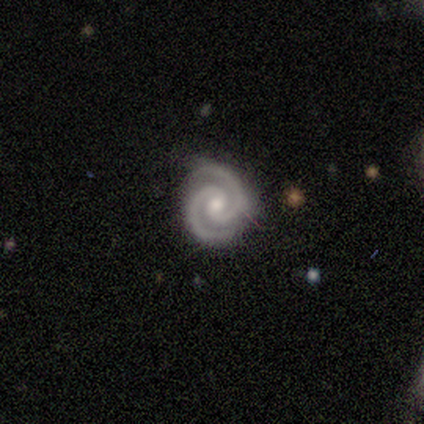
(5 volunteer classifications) Q: Smooth or featured?
A: featured or disk (100%)
Q: Edge-on disk?
A: no (100%)
Q: Bar?
A: no (80%); runner-up: weak (20%)
Q: Spiral arms?
A: yes (100%)
Q: Spiral winding?
A: tight (60%); runner-up: medium (40%)
Q: Spiral arm count?
A: 2 (100%)
Q: Bulge size?
A: moderate (60%); runner-up: small (40%)
Q: Merging?
A: none (60%); runner-up: minor disturbance (20%)